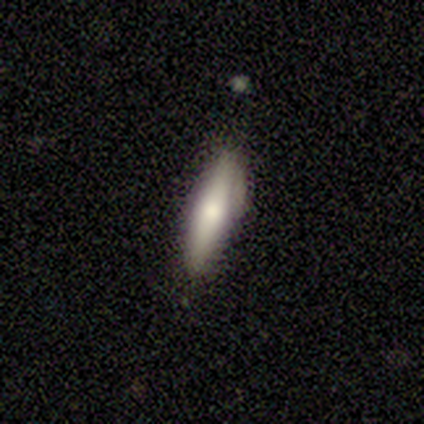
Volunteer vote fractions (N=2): Smooth or featured?
  - smooth: 100% *
  - featured or disk: 0%
  - star or artifact: 0%
How rounded?
  - in between: 50% * (tied)
  - cigar-shaped: 50% * (tied)
  - round: 0%
Merging?
  - none: 100% *
  - minor disturbance: 0%
  - major disturbance: 0%
  - merger: 0%